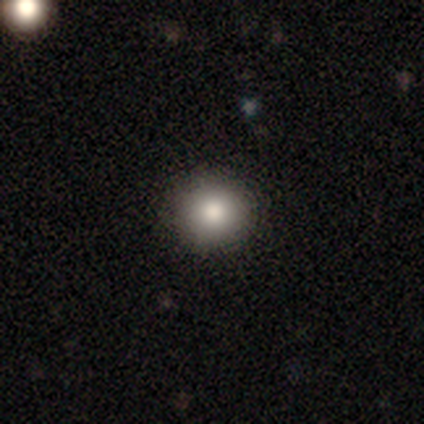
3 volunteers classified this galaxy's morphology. Smooth or featured?
  - smooth: 33% * (tied)
  - featured or disk: 33% * (tied)
  - star or artifact: 33% * (tied)
How rounded?
  - round: 100% *
  - in between: 0%
  - cigar-shaped: 0%
Merging?
  - none: 100% *
  - minor disturbance: 0%
  - major disturbance: 0%
  - merger: 0%